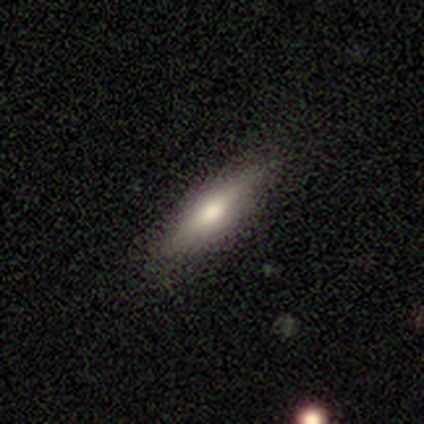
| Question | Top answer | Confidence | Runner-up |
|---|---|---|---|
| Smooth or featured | smooth | 80% | featured or disk (20%) |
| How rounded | in between | 75% | cigar-shaped (25%) |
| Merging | none | 80% | minor disturbance (20%) |